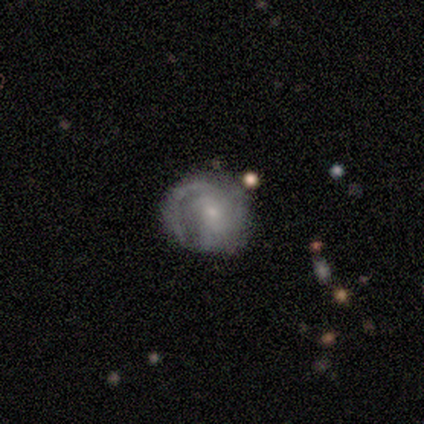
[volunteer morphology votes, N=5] A featured or disk galaxy (100%) with no bar (60%), 2 (80%) tight (40%, tied with medium) spiral arms (100%) and a small central bulge (60%).

Vote fractions:
- Smooth or featured? featured or disk: 100% / smooth: 0% / star or artifact: 0%
- Edge-on disk? no: 100% / yes: 0%
- Bar? no: 60% / weak: 40% / strong: 0%
- Spiral arms? yes: 100% / no: 0%
- Spiral winding? tight: 40% (tied) / medium: 40% (tied) / loose: 20%
- Spiral arm count? 2: 80% / 1: 20% / 3: 0% / 4: 0% / more than 4: 0% / can't tell: 0%
- Bulge size? small: 60% / moderate: 40% / dominant: 0% / large: 0% / none: 0%
- Merging? none: 100% / minor disturbance: 0% / major disturbance: 0% / merger: 0%